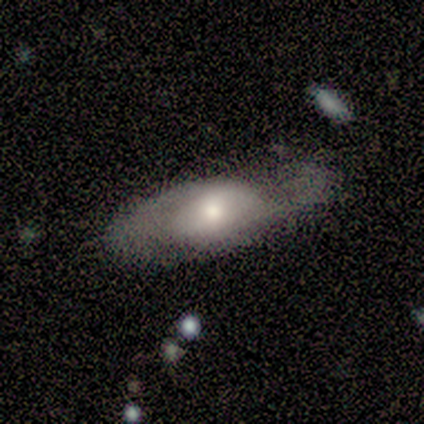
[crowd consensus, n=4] This appears to be a smooth galaxy with no disk features (50%, tied with featured or disk) that is in between round and cigar-shaped (100%). Merging: major disturbance (50%).